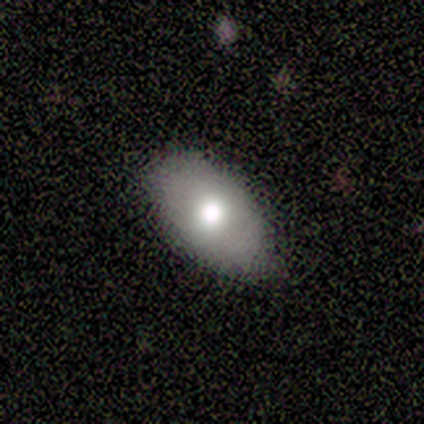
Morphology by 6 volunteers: smooth-or-featured: smooth: 67% | featured or disk: 33% | star or artifact: 0%
  how-rounded: in between: 100% | round: 0% | cigar-shaped: 0%
  merging: none: 83% | minor disturbance: 17% | major disturbance: 0% | merger: 0%